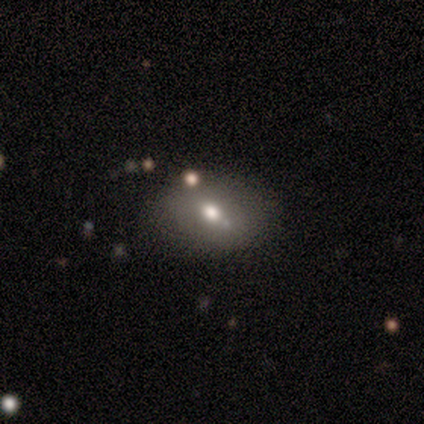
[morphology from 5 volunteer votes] Smooth or featured?
  - smooth: 40% * (tied)
  - featured or disk: 40% * (tied)
  - star or artifact: 20%
How rounded?
  - in between: 100% *
  - round: 0%
  - cigar-shaped: 0%
Merging?
  - none: 100% *
  - minor disturbance: 0%
  - major disturbance: 0%
  - merger: 0%